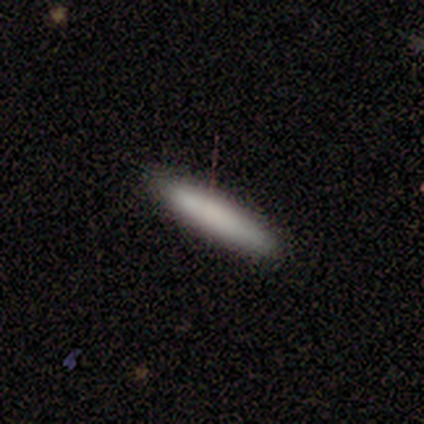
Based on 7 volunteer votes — smooth 100%, featured or disk 0%, star or artifact 0%. Down the decision tree: how rounded — cigar-shaped (71%); merging — none (100%).